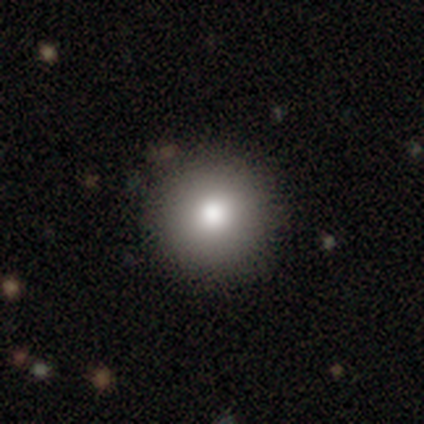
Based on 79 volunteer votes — This is clearly a smooth galaxy (86%). How rounded: clearly round (99%). Merging: possibly none (48%).